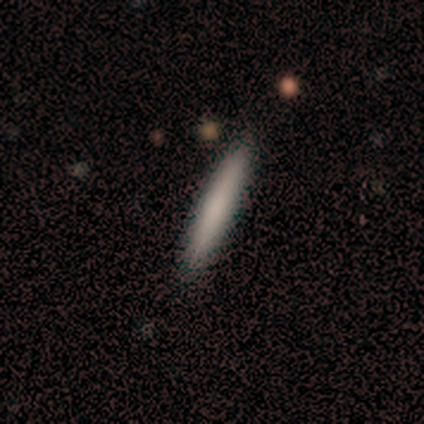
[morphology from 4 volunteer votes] This is likely a smooth galaxy (75%). How rounded: clearly cigar-shaped (100%). Merging: clearly none (100%).